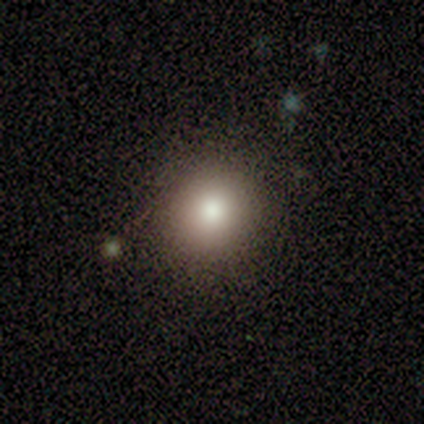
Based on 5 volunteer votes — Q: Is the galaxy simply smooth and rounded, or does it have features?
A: smooth — 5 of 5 (100%).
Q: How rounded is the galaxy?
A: round — 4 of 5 (80%).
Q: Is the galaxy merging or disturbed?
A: none — 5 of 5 (100%).